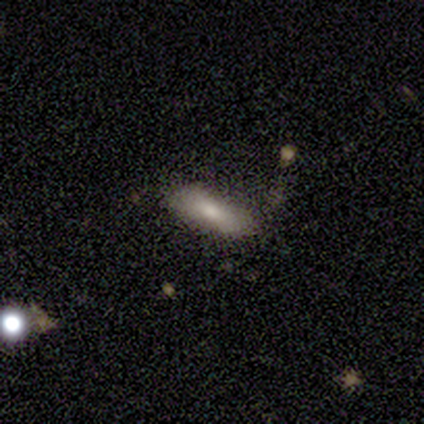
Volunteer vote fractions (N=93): smooth_or_featured: smooth (p=0.74) [alt: featured or disk p=0.16]
how_rounded: in between (p=0.59) [alt: cigar-shaped p=0.38]
merging: none (p=0.63) [alt: minor disturbance p=0.23]